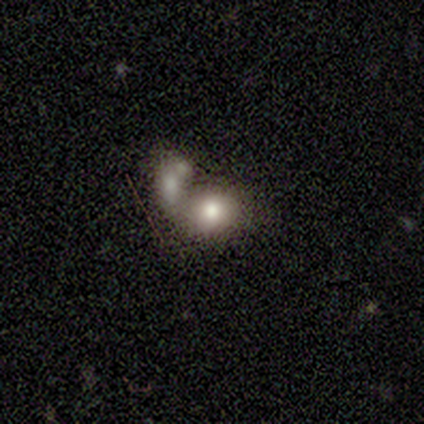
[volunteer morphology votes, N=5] This appears to be a smooth galaxy with no disk features (60%) that is in between round and cigar-shaped (67%). Merging: none (40%, tied with merger).